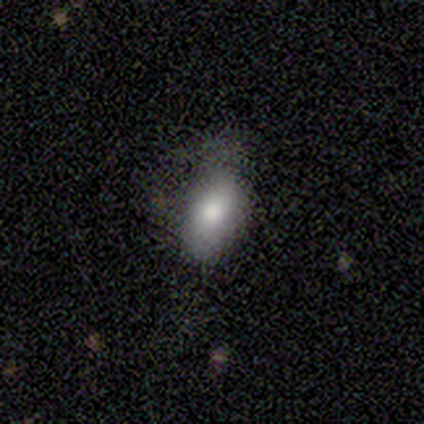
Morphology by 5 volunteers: Volunteers were most divided on "merging": major disturbance: 60%, minor disturbance: 40%, none: 0%, merger: 0%. More confident: how rounded — in between (100%); smooth or featured — smooth (80%).